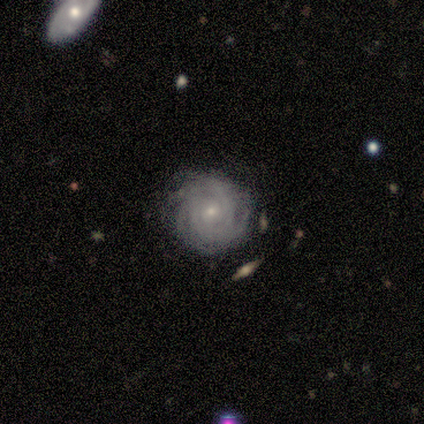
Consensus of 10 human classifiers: Smooth or featured: featured or disk — 100%
Edge-on disk: no — 100%
Bar: no — 100%
Spiral arms: yes — 90% (no — 10%)
Spiral winding: tight — 89% (loose — 11%)
Spiral arm count: more than 4 — 44% (tied with can't tell — 44%)
Bulge size: small — 70% (moderate — 20%)
Merging: none — 60% (minor disturbance — 30%)